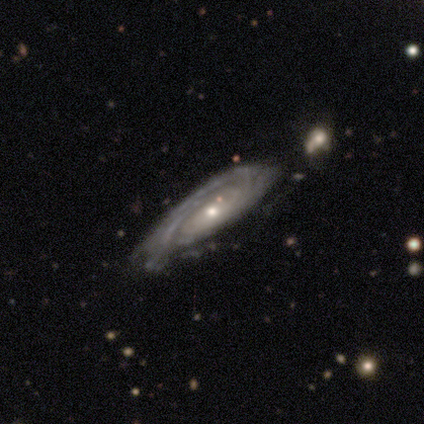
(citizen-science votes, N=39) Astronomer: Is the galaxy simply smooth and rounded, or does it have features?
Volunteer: featured or disk — 92%.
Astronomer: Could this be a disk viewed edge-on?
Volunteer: no — 86%.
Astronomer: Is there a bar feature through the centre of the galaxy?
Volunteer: no — 90%.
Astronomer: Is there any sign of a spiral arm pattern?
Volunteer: yes — 94%.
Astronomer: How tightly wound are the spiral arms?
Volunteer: tight — 76%.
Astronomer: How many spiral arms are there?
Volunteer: can't tell — 66%.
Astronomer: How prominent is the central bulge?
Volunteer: small — 52% (runner-up: moderate, 45%).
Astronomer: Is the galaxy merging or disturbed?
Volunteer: none — 46% (runner-up: minor disturbance, 27%).